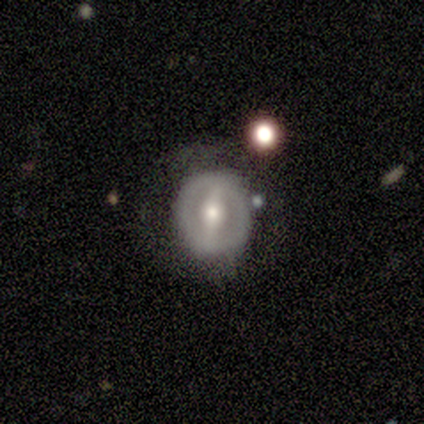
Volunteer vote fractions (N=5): Smooth or featured? 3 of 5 (60%) said smooth. How rounded? 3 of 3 (100%) said round. Merging? 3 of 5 (60%) said none.